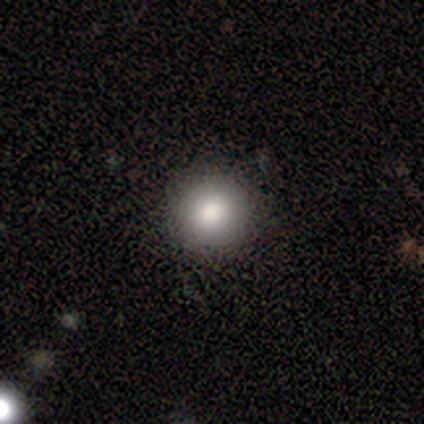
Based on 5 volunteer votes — Smooth or featured? 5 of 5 (100%) said smooth. How rounded? 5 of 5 (100%) said round. Merging? 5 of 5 (100%) said none.